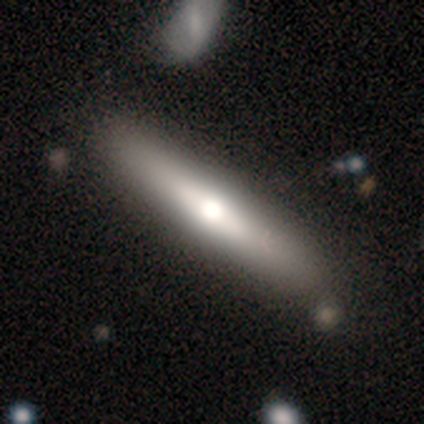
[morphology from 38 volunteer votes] smooth_or_featured: featured or disk (p=0.50) [alt: smooth p=0.47]
disk_edge_on: yes (p=0.79) [alt: no p=0.21]
edge_on_bulge: rounded (p=0.80) [alt: none p=0.13]
merging: none (p=0.54) [alt: merger p=0.14]